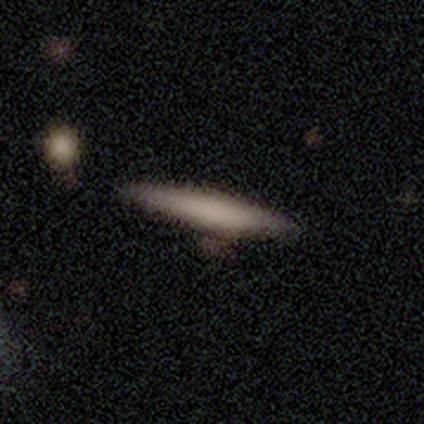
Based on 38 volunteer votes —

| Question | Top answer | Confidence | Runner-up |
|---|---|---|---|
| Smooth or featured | smooth | 63% | featured or disk (37%) |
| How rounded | cigar-shaped | 88% | in between (12%) |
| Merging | none | 84% | minor disturbance (16%) |